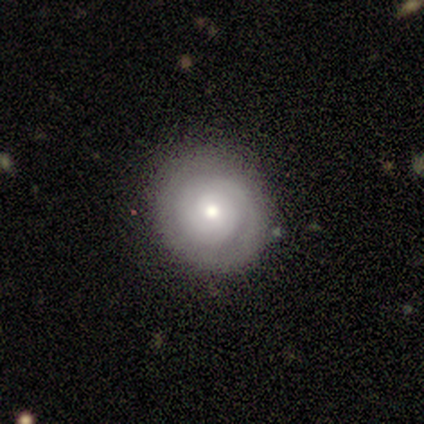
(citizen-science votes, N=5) Morphology: type=smooth (60%); roundness=round (100%); merging=none (100%).